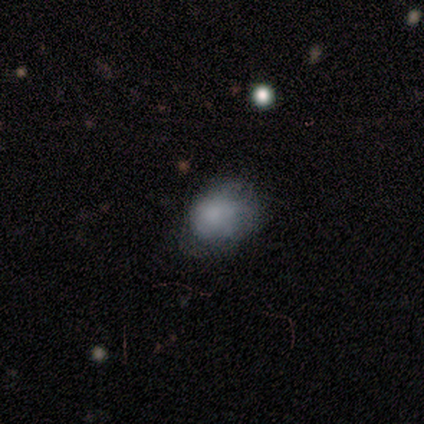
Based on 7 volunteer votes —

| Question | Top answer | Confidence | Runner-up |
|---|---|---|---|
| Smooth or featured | smooth | 86% | featured or disk (14%) |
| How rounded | round | 50% | in between (33%) |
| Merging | none | 57% | minor disturbance (14%) |